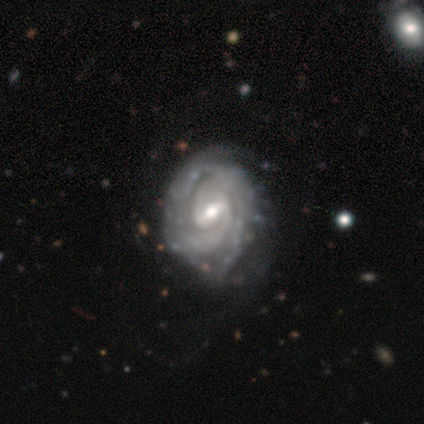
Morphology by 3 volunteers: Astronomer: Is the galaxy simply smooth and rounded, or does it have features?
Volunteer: featured or disk — 67%.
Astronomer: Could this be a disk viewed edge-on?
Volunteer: no — 100%.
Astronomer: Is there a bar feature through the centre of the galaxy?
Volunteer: strong — 50%, tied with weak at 50%.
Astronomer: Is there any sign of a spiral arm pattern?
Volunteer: yes — 100%.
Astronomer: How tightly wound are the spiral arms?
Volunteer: tight — 100%.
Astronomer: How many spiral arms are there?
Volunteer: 2 — 50%, tied with can't tell at 50%.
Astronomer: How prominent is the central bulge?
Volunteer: moderate — 50%, tied with small at 50%.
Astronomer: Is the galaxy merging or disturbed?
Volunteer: none — 33%, tied with minor disturbance and major disturbance at 33%.